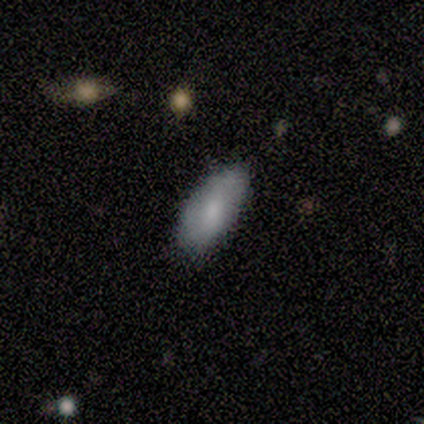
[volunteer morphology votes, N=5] Q: Smooth or featured?
A: smooth (100%)
Q: How rounded?
A: in between (100%)
Q: Merging?
A: none (100%)